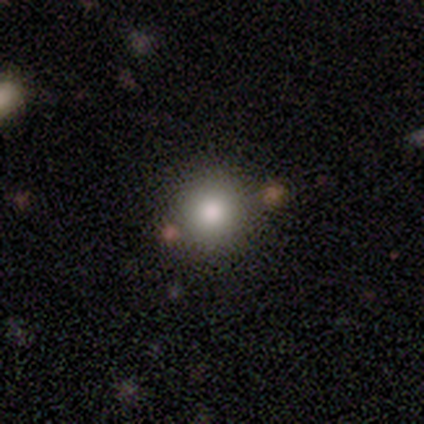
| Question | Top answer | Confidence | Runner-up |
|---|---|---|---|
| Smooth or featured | smooth | 100% | — |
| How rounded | round | 100% | — |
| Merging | none | 75% | major disturbance (25%) |